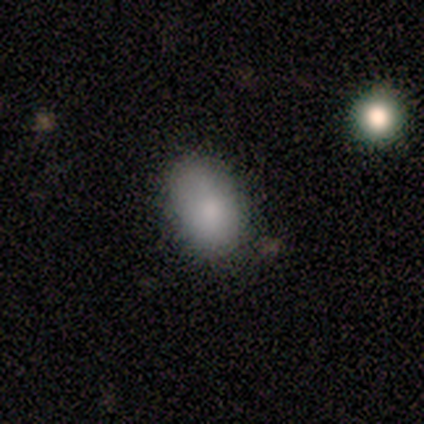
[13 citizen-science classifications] smooth-or-featured: smooth: 85% | featured or disk: 8% | star or artifact: 8%
  how-rounded: in between: 82% | round: 18% | cigar-shaped: 0%
  merging: none: 58% | minor disturbance: 33% | merger: 8% | major disturbance: 0%